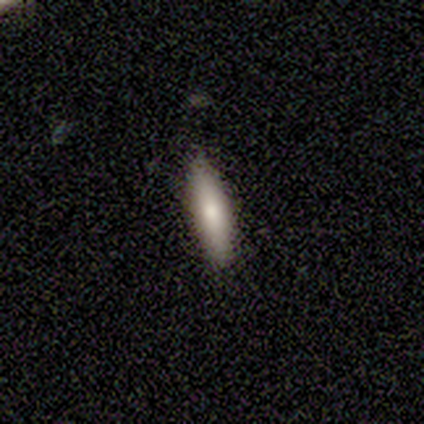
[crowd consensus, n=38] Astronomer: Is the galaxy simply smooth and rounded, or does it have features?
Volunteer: smooth — 82%.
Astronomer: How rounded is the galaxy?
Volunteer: cigar-shaped — 71%.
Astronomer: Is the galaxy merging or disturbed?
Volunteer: none — 95%.